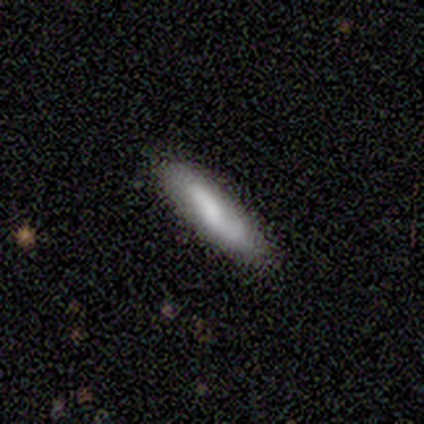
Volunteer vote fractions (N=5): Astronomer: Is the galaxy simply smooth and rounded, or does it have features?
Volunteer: smooth — 40%, tied with featured or disk at 40%.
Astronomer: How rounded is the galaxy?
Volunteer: cigar-shaped — 100%.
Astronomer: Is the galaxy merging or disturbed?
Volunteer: none — 75%.